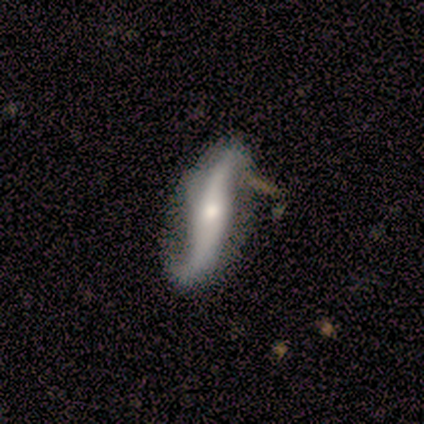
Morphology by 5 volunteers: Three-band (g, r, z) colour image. It shows a featured or disk galaxy (80%) viewed edge-on (50%, tied with no) with a rounded central bulge (100%). Merging: none (40%, tied with merger).